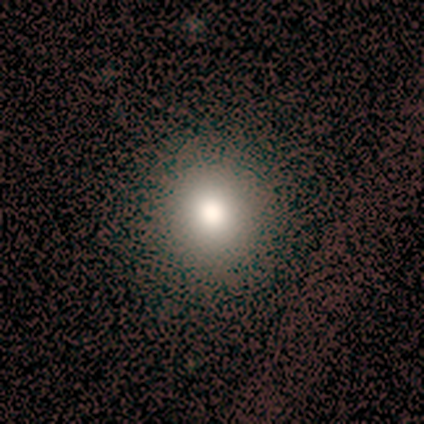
This is clearly a smooth galaxy (100%). How rounded: clearly round (100%). Merging: clearly none (100%).